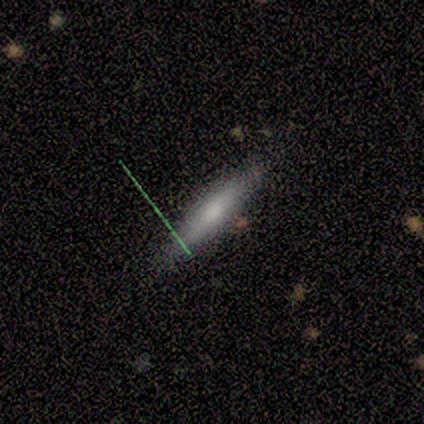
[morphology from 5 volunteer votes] A smooth galaxy with no disk features (60%) that is cigar-shaped (100%).

Vote fractions:
- Smooth or featured? smooth: 60% / featured or disk: 40% / star or artifact: 0%
- How rounded? cigar-shaped: 100% / round: 0% / in between: 0%
- Merging? none: 80% / major disturbance: 20% / minor disturbance: 0% / merger: 0%